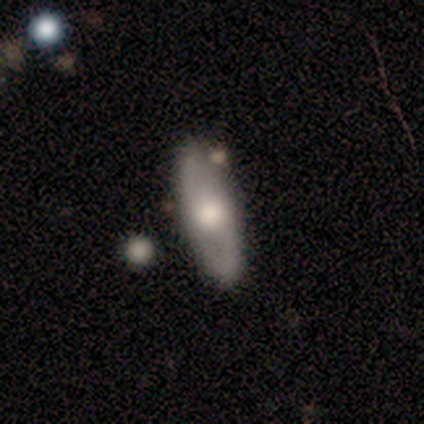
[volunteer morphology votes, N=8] This appears to be a smooth galaxy with no disk features (75%) that is in between round and cigar-shaped (50%, tied with cigar-shaped). Merging: none (88%).